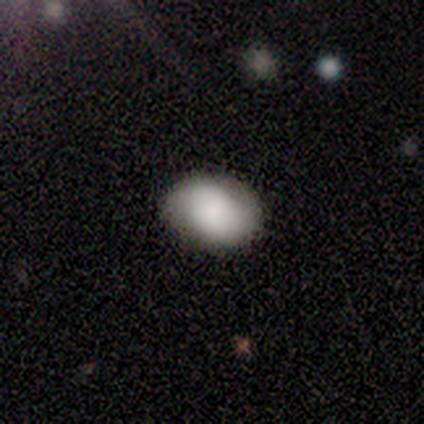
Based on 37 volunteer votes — Smooth or featured: smooth — 81% (featured or disk — 19%)
How rounded: in between — 80% (round — 17%)
Merging: none — 76% (minor disturbance — 24%)